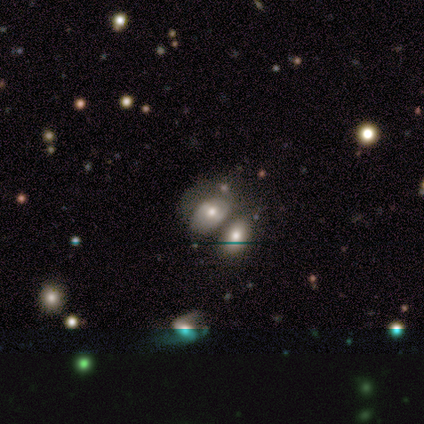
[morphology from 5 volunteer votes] Overall: smooth (80%). How rounded: round (50%, tied with in between). Merging: merger (60%; none 20%).